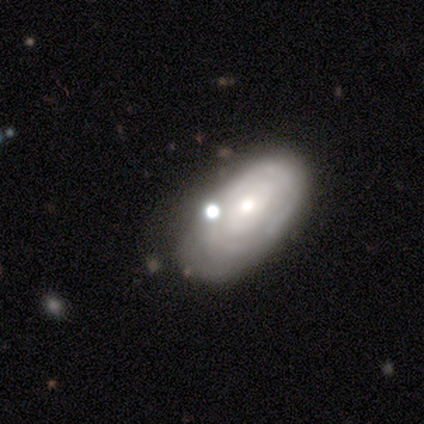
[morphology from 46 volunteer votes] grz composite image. It shows a featured or disk galaxy (67%) with no bar (75%), tight (65%) spiral arms (71%) and a moderate central bulge (61%). Merging: none (52%).